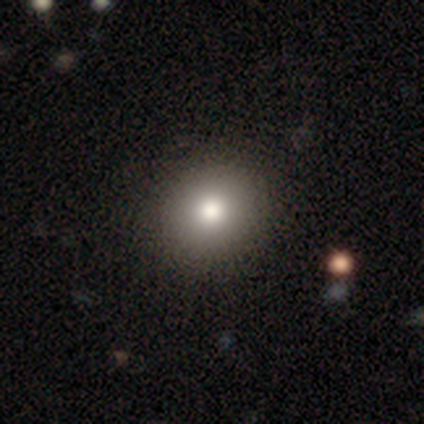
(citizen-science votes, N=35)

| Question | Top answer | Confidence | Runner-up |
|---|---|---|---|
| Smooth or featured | smooth | 83% | featured or disk (14%) |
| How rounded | round | 83% | in between (17%) |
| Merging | none | 50% | minor disturbance (6%) |